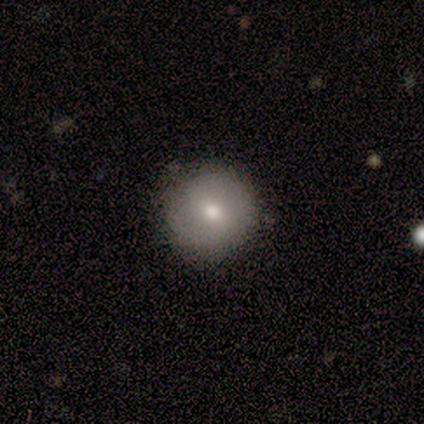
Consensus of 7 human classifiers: smooth-or-featured: featured or disk: 57% | smooth: 43% | star or artifact: 0%
  disk-edge-on: no: 100% | yes: 0%
    bar: no: 75% | strong: 25% | weak: 0%
    has-spiral-arms: no: 75% | yes: 25%
    bulge-size: moderate: 50% (tied) | small: 50% (tied) | dominant: 0% | large: 0% | none: 0%
  merging: none: 86% | major disturbance: 14% | minor disturbance: 0% | merger: 0%